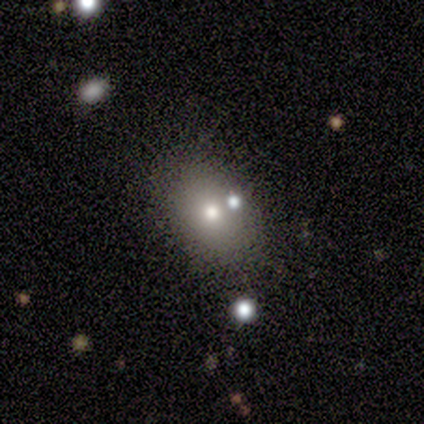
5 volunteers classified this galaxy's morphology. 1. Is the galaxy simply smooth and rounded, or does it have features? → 60% smooth, 40% featured or disk, 0% star or artifact.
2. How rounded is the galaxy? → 67% in between, 33% round, 0% cigar-shaped.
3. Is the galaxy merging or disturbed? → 100% none, 0% minor disturbance, 0% major disturbance, 0% merger.